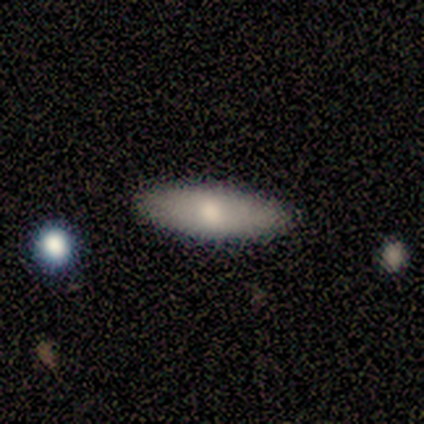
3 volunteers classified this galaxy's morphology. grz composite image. It shows a smooth galaxy with no disk features (67%) that is in between round and cigar-shaped (100%). Merging: none (100%).